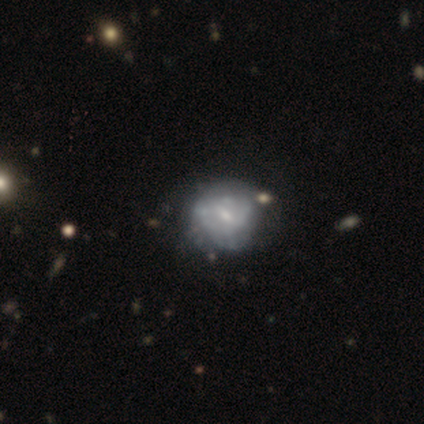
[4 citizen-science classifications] smooth 75%, featured or disk 25%, star or artifact 0%. Down the decision tree: how rounded — round (67%); merging — none (100%).